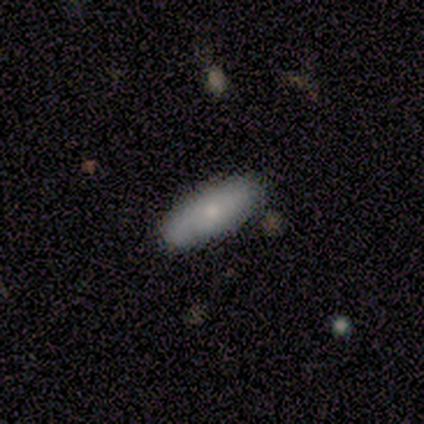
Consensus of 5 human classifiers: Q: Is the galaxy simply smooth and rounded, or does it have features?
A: smooth — 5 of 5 (100%).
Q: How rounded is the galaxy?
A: in between — 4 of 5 (80%).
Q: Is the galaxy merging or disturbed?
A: none — 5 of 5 (100%).